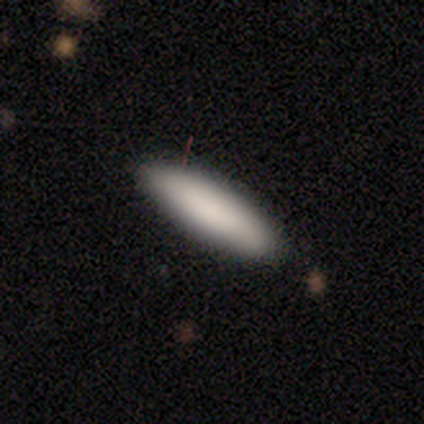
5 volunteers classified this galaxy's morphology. smooth-or-featured: smooth: 100% | featured or disk: 0% | star or artifact: 0%
  how-rounded: cigar-shaped: 80% | in between: 20% | round: 0%
  merging: none: 80% | minor disturbance: 20% | major disturbance: 0% | merger: 0%